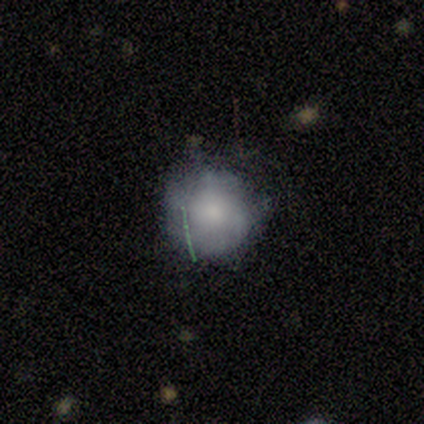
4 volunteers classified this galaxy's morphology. Volunteers were most divided on "merging" (2-way tie): none: 50%, minor disturbance: 50%, major disturbance: 0%, merger: 0%. More confident: smooth or featured — smooth (100%); how rounded — round (100%).